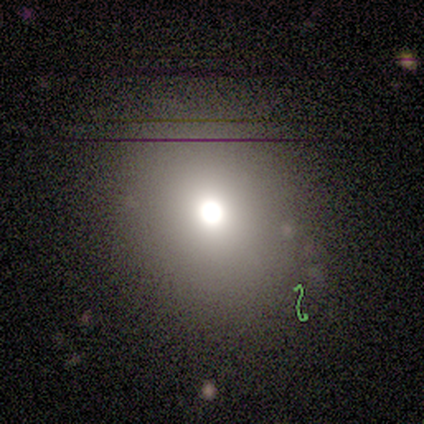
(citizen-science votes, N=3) smooth-or-featured: smooth: 100% | featured or disk: 0% | star or artifact: 0%
  how-rounded: round: 100% | in between: 0% | cigar-shaped: 0%
  merging: none: 67% | major disturbance: 33% | minor disturbance: 0% | merger: 0%